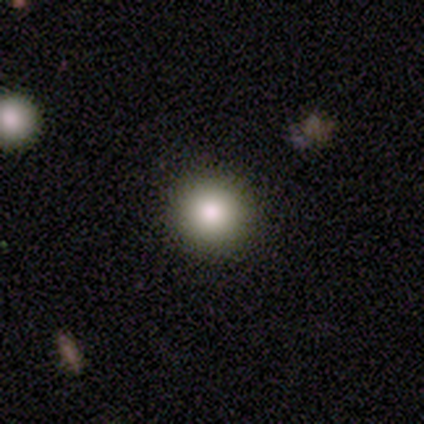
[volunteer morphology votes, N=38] smooth 82%, star or artifact 13%, featured or disk 5%. Down the decision tree: how rounded — round (100%); merging — none (100%).